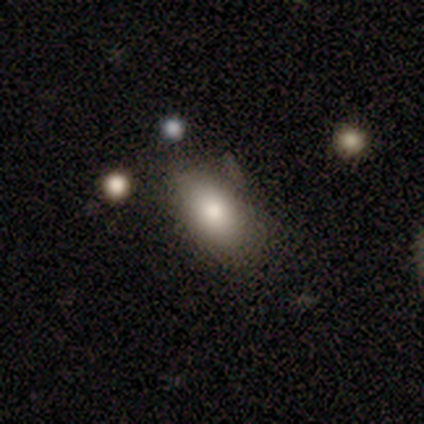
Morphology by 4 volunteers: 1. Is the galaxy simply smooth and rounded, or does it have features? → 100% smooth, 0% featured or disk, 0% star or artifact.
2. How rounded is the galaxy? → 100% in between, 0% round, 0% cigar-shaped.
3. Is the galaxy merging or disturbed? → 50% none (tied), 50% minor disturbance (tied), 0% major disturbance, 0% merger.